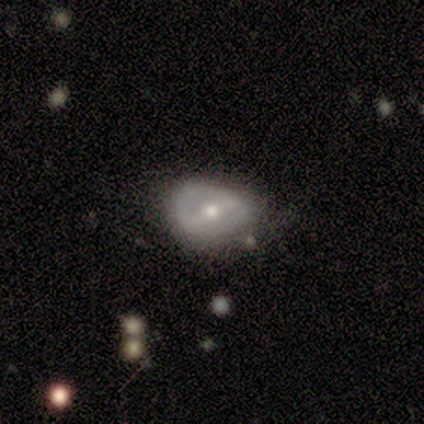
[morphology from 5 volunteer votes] Overall: featured or disk (60%; smooth 40%). Edge-on disk: no (100%). Bar: weak (67%; strong 33%). Spiral arms: yes (67%; no 33%). Spiral arm count: 2 (50%, tied with can't tell). Spiral winding: tight (50%, tied with medium). Bulge size: moderate (100%). Merging: none (80%).